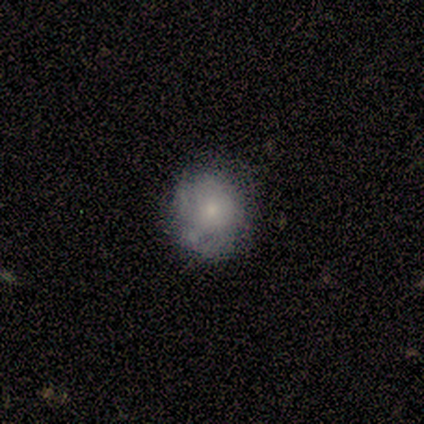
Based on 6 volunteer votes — smooth 67%, featured or disk 33%, star or artifact 0%. Down the decision tree: how rounded — round (100%); merging — none (100%).